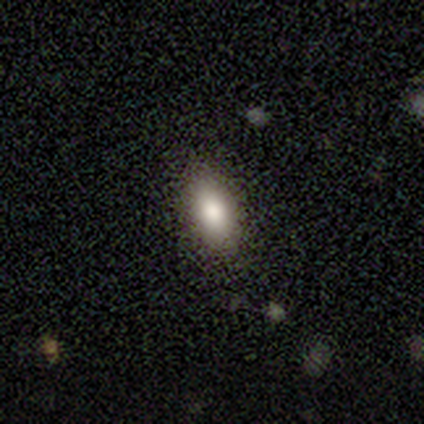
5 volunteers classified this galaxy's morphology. smooth_or_featured: smooth (p=0.80) [alt: star or artifact p=0.20]
how_rounded: in between (p=1.00)
merging: none (p=1.00)